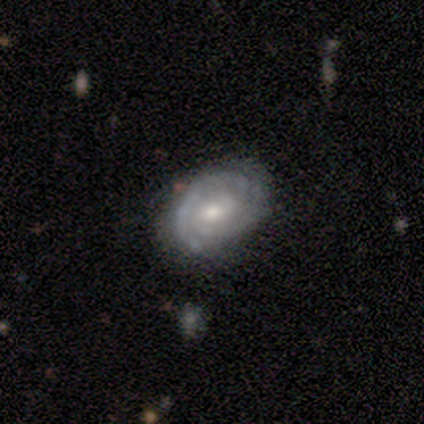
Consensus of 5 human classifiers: smooth_or_featured: featured or disk (p=1.00)
disk_edge_on: no (p=1.00)
bar: weak (p=0.60) [alt: no p=0.40]
has_spiral_arms: yes (p=1.00)
spiral_winding: tight (p=0.80) [alt: medium p=0.20]
spiral_arm_count: 2 (p=1.00)
bulge_size: moderate (p=0.80) [alt: small p=0.20]
merging: none (p=1.00)